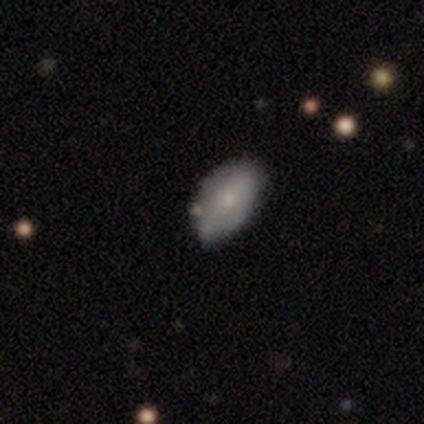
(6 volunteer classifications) Overall: smooth (50%, tied with featured or disk). How rounded: in between (67%; round 33%). Merging: none (83%).